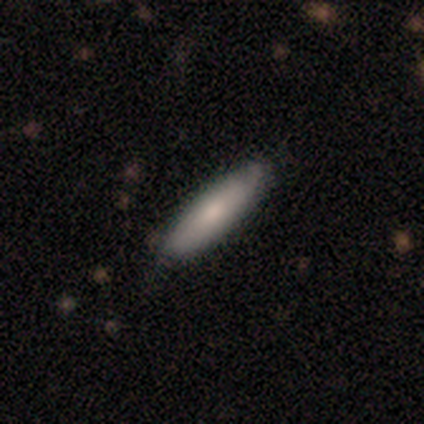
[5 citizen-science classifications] Overall: smooth (80%). How rounded: cigar-shaped (75%). Merging: none (100%).